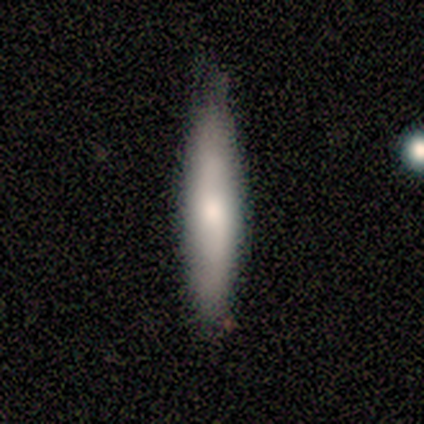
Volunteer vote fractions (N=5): This appears to be a smooth galaxy with no disk features (60%) that is cigar-shaped (100%). Merging: none (60%).